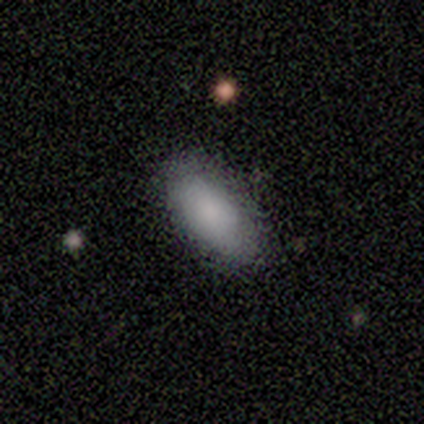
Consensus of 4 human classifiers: Q: Smooth or featured?
A: smooth (100%)
Q: How rounded?
A: in between (100%)
Q: Merging?
A: none (100%)